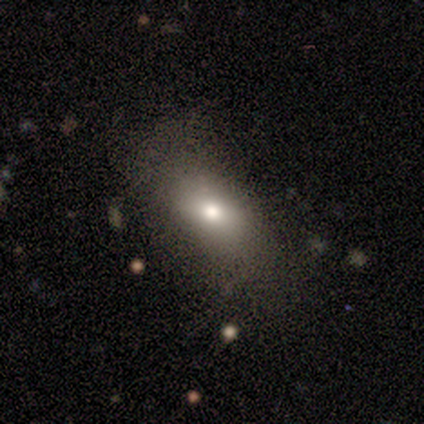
Smooth or featured? 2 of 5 (40%, tied with featured or disk) said smooth. How rounded? 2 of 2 (100%) said in between. Merging? 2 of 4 (50%) said none.